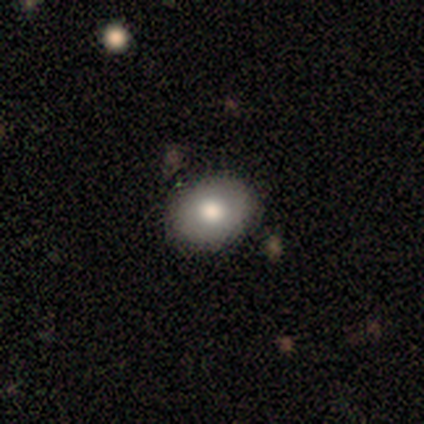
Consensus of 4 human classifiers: Smooth or featured? 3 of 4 (75%) said smooth. How rounded? 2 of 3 (67%) said in between. Merging? 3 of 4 (75%) said none.